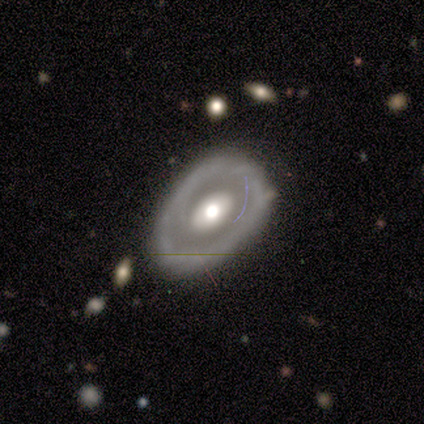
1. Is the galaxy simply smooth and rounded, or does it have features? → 76% featured or disk, 21% smooth, 3% star or artifact.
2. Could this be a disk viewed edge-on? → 96% no, 4% yes.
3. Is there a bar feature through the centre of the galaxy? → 77% no, 18% weak, 5% strong.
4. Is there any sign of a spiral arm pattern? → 82% no, 18% yes.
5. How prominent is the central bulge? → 62% moderate, 31% large, 3% dominant, 2% small, 1% none.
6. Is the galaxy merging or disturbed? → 72% none, 22% minor disturbance, 5% major disturbance, 1% merger.